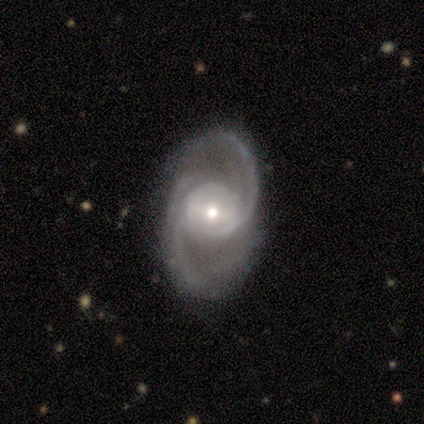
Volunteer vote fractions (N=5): featured or disk 100%, smooth 0%, star or artifact 0%. Down the decision tree: edge-on disk — no (100%); bar — no (60%); spiral arms — yes (100%); spiral arm count — 2 (80%); spiral winding — loose (60%); bulge size — small (80%); merging — none (80%).